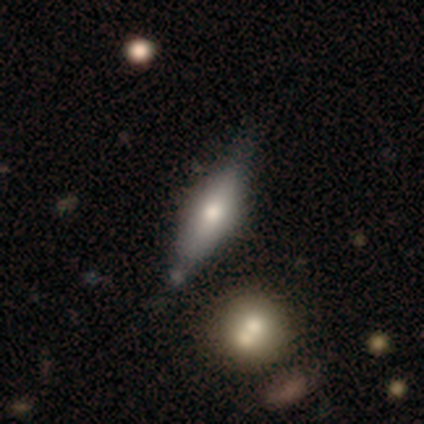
Smooth or featured? 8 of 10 (80%) said smooth. How rounded? 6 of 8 (75%) said cigar-shaped. Merging? 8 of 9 (89%) said none.